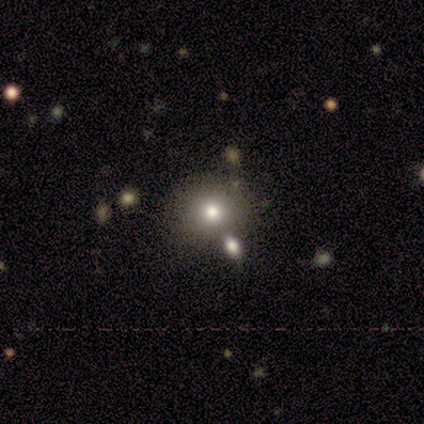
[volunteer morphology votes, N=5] A featured or disk galaxy (60%) with no bar (100%), no spiral arms (100%) and a moderate central bulge (100%). Merging: none (60%).